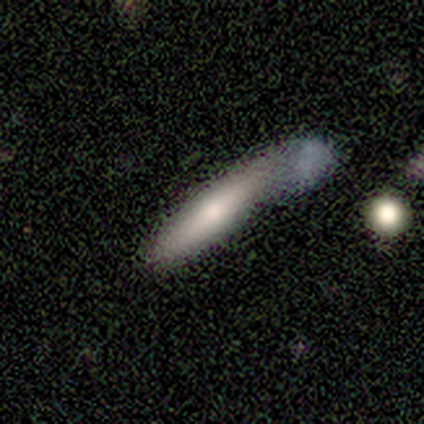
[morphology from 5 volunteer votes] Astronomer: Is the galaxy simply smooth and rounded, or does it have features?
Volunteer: smooth — 80%.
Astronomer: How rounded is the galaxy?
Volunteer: cigar-shaped — 100%.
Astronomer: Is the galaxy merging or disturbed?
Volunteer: merger — 60%.